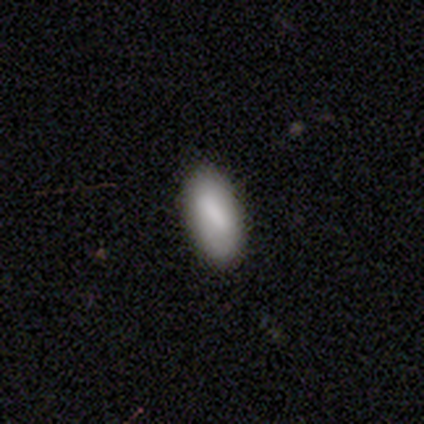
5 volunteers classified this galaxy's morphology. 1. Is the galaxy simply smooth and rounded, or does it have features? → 100% smooth, 0% featured or disk, 0% star or artifact.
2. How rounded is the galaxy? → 100% in between, 0% round, 0% cigar-shaped.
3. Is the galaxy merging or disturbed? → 60% none, 40% minor disturbance, 0% major disturbance, 0% merger.